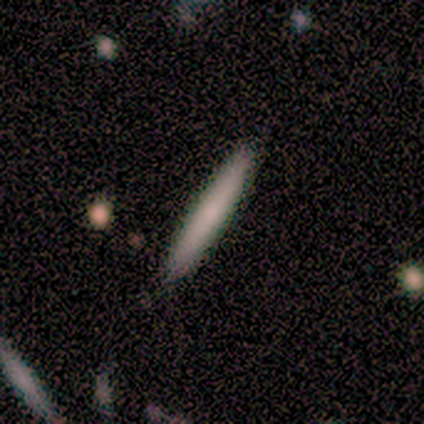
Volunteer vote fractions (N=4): smooth 50%, featured or disk 25%, star or artifact 25%. Down the decision tree: how rounded — cigar-shaped (100%); merging — none (100%).